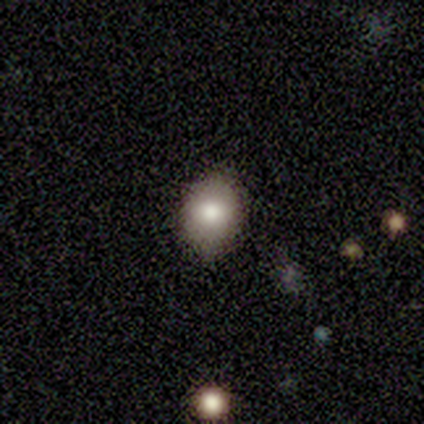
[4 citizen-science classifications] Morphology: type=smooth (100%); roundness=in between (75%); merging=none (75%).